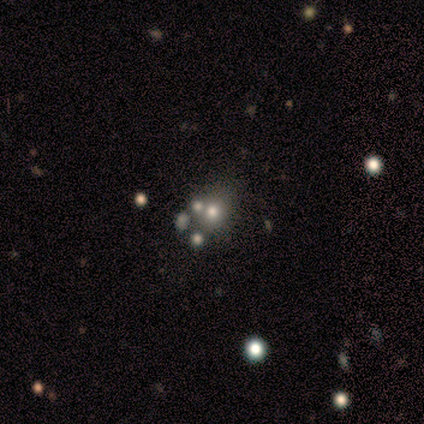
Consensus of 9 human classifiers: smooth_or_featured: smooth (p=0.44) [alt: featured or disk p=0.33]
how_rounded: round (p=0.50) [tied with: in between p=0.50]
merging: none (p=0.86) [alt: minor disturbance p=0.14]